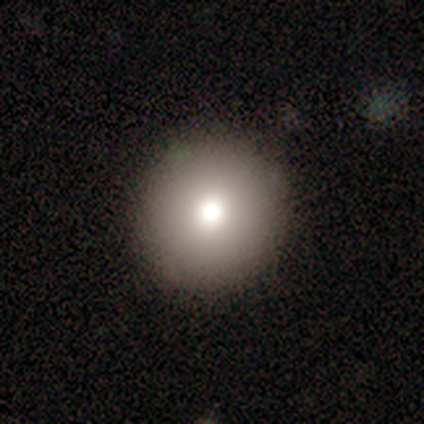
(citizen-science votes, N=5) Overall: smooth (80%). How rounded: round (100%). Merging: none (100%).